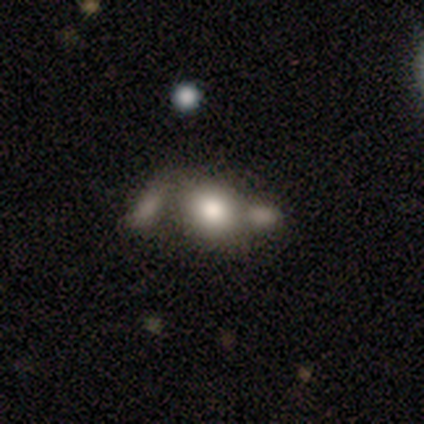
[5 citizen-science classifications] Smooth or featured: smooth — 60% (featured or disk — 40%)
How rounded: round — 67% (in between — 33%)
Merging: none — 60% (major disturbance — 20%)